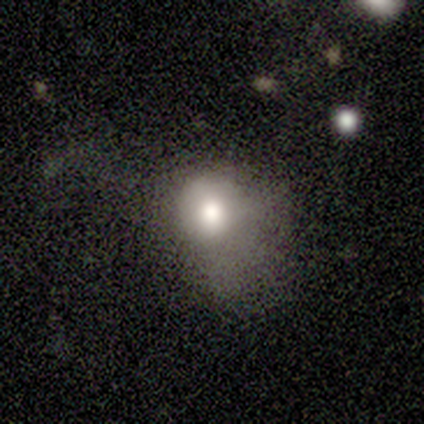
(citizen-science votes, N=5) Q: Smooth or featured?
A: smooth (60%); runner-up: featured or disk (20%)
Q: How rounded?
A: round (100%)
Q: Merging?
A: major disturbance (100%)